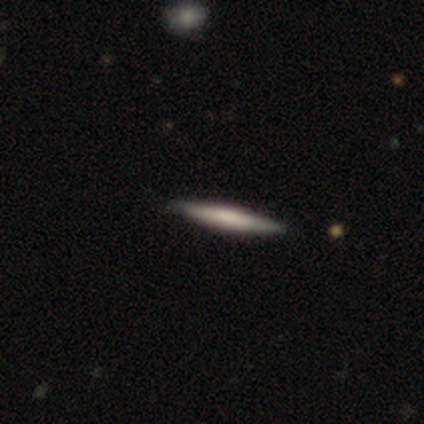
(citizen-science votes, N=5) This appears to be a featured or disk galaxy (80%) viewed edge-on (100%) with no central bulge (75%). Merging: none (80%).